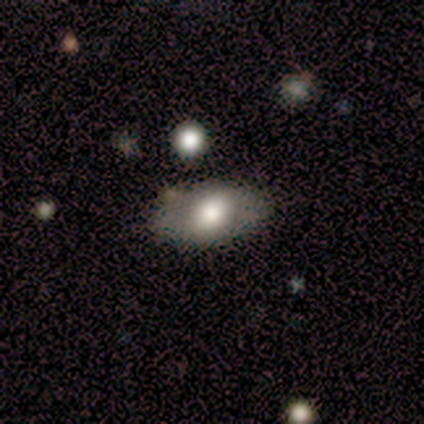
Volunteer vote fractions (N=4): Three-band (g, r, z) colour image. It shows a smooth galaxy with no disk features (75%) that is in between round and cigar-shaped (100%). Merging: none (75%).